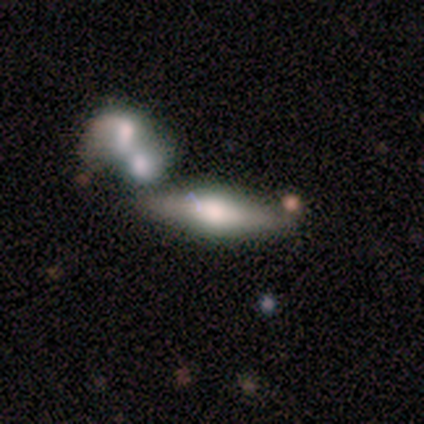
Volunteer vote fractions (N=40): A featured or disk galaxy (60%) viewed edge-on (83%) with a rounded central bulge (85%).

Vote fractions:
- Smooth or featured? featured or disk: 60% / smooth: 38% / star or artifact: 2%
- Edge-on disk? yes: 83% / no: 17%
- Edge-on bulge? rounded: 85% / boxy: 10% / none: 5%
- Merging? none: 54% / merger: 36% / minor disturbance: 10% / major disturbance: 0%